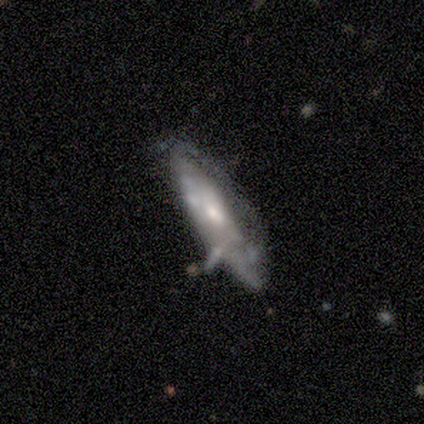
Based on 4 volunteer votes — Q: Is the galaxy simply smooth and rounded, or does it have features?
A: featured or disk — 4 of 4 (100%).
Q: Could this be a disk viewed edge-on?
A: no — 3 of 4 (75%).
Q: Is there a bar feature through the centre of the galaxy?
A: weak — 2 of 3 (67%).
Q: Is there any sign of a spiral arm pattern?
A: no — 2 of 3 (67%).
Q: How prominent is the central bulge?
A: small — 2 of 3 (67%).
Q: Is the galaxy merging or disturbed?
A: none — 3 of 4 (75%).